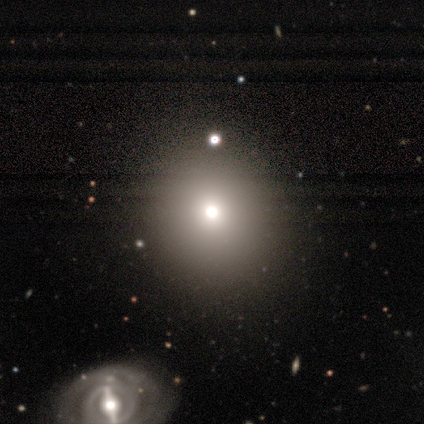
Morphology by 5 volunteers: Smooth or featured? 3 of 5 (60%) said smooth. How rounded? 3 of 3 (100%) said round. Merging? 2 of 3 (67%) said none.